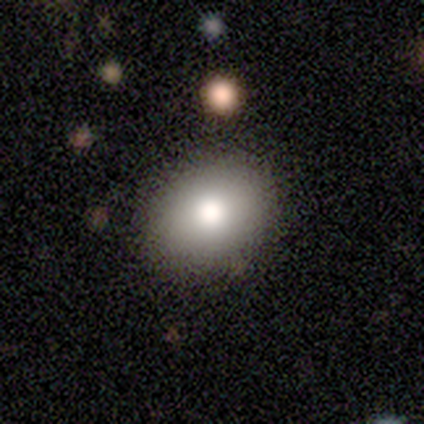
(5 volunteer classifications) Smooth or featured? smooth (80%)
How rounded? in between (100%)
Merging? none (100%)